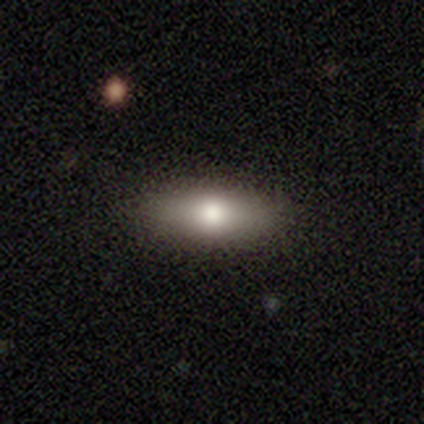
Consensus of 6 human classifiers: Smooth or featured? 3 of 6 (50%) said smooth. How rounded? 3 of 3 (100%) said in between. Merging? 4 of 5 (80%) said none.